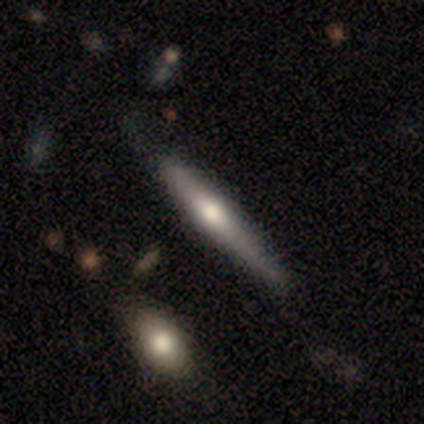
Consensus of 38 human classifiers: smooth_or_featured: featured or disk (p=0.71) [alt: smooth p=0.26]
disk_edge_on: yes (p=0.89) [alt: no p=0.11]
edge_on_bulge: rounded (p=0.88) [alt: none p=0.08]
merging: none (p=0.54) [alt: minor disturbance p=0.32]